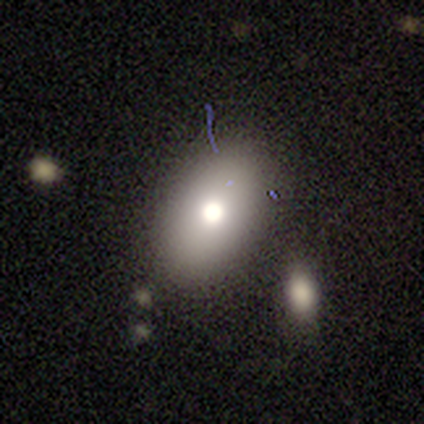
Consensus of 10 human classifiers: smooth_or_featured: smooth (p=0.70) [alt: featured or disk p=0.30]
how_rounded: in between (p=0.86) [alt: round p=0.14]
merging: none (p=0.70) [alt: minor disturbance p=0.30]